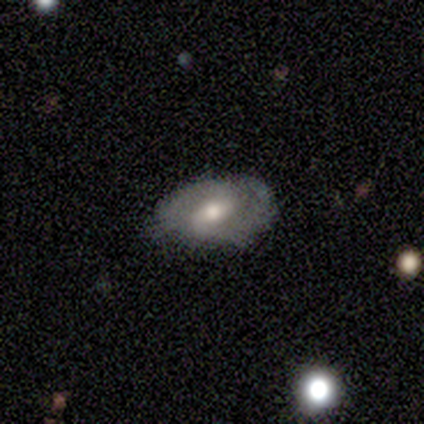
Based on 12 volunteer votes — This is possibly a featured or disk galaxy (58%). It is clearly not viewed edge-on (86%). Bar: clearly weak (83%). Spiral arm pattern: clearly yes (83%). Spiral arm count: clearly 2 (80%). Spiral winding: likely medium (60%). Central bulge: likely moderate (67%). Merging: marginally none (36%, tied with minor disturbance).